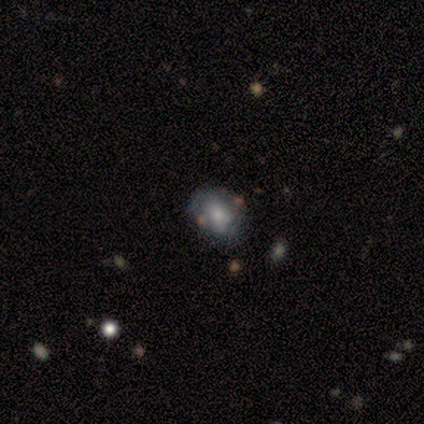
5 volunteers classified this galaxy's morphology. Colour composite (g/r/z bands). It shows a featured or disk galaxy (60%) with no bar (100%), no spiral arms (67%) and a large central bulge (33%, tied with moderate and none). Merging: none (80%).